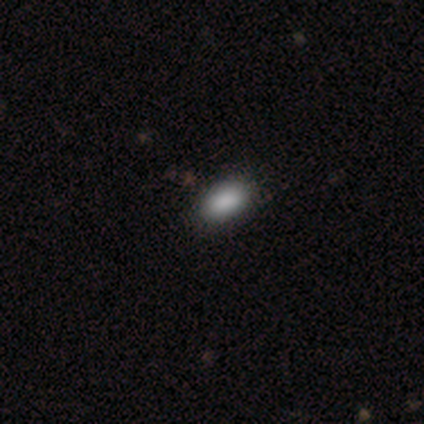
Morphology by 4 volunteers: This is clearly a smooth galaxy (100%). How rounded: clearly in between (100%). Merging: clearly none (100%).